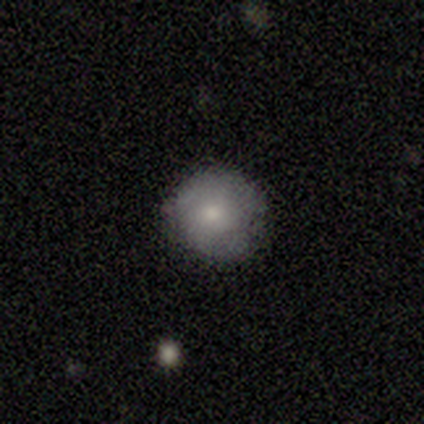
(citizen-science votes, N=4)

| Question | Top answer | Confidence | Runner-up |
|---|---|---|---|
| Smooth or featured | smooth | 50% | tied: featured or disk (50%) |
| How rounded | round | 100% | — |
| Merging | none | 75% | minor disturbance (25%) |